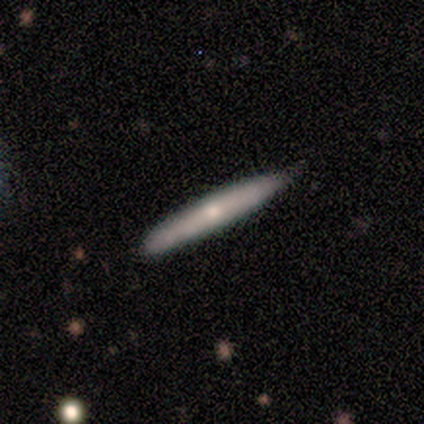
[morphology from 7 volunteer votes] Smooth or featured? 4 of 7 (57%) said smooth. How rounded? 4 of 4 (100%) said cigar-shaped. Merging? 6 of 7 (86%) said none.